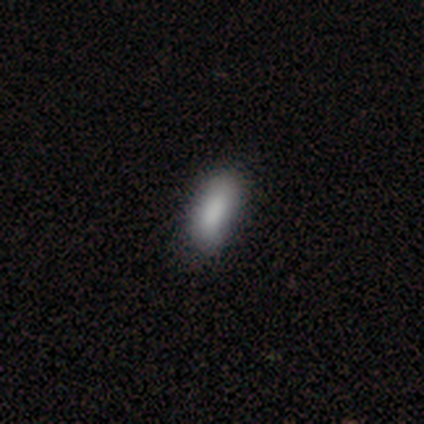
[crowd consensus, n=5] Q: Smooth or featured?
A: smooth (100%)
Q: How rounded?
A: in between (100%)
Q: Merging?
A: none (100%)